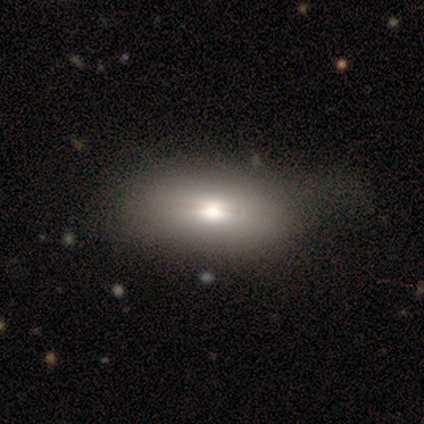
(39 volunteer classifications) A smooth galaxy with no disk features (51%) that is in between round and cigar-shaped (90%). Merging: none (27%).